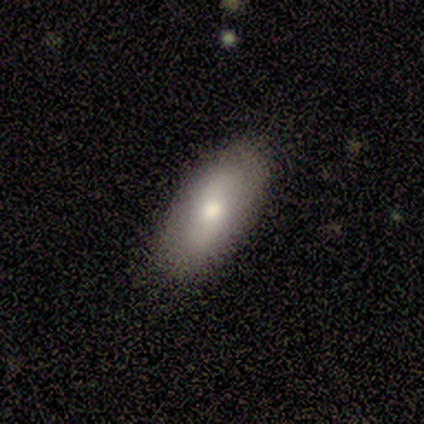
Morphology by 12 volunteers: A smooth galaxy with no disk features (75%) that is in between round and cigar-shaped (89%). Merging: none (82%).